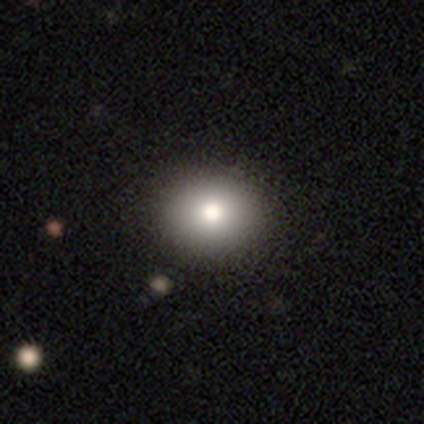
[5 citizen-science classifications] Q: Smooth or featured?
A: smooth (60%); runner-up: star or artifact (40%)
Q: How rounded?
A: round (100%)
Q: Merging?
A: none (67%); runner-up: major disturbance (33%)